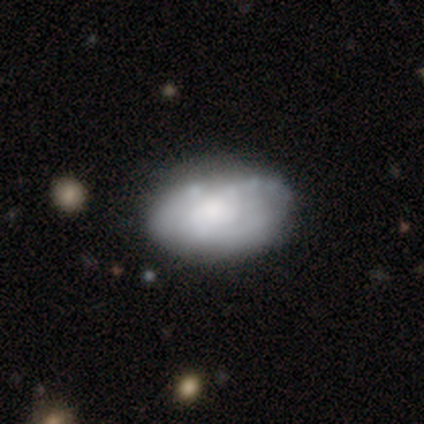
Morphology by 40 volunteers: Smooth or featured: featured or disk — 50% (smooth — 42%)
Edge-on disk: no — 100%
Bar: no — 95% (weak — 5%)
Spiral arms: no — 60% (yes — 40%)
Bulge size: moderate — 55% (large — 20%)
Merging: none — 38% (minor disturbance — 27%)